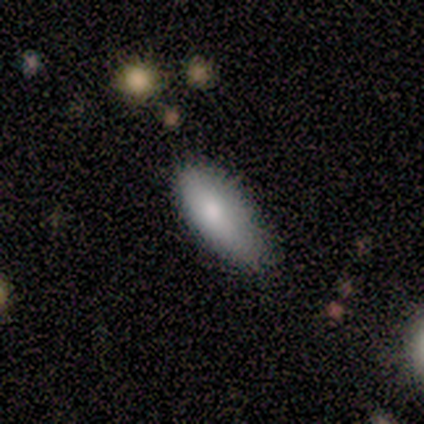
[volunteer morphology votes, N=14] smooth-or-featured: smooth: 71% | featured or disk: 21% | star or artifact: 7%
  how-rounded: in between: 90% | cigar-shaped: 10% | round: 0%
  merging: none: 62% | minor disturbance: 38% | major disturbance: 0% | merger: 0%